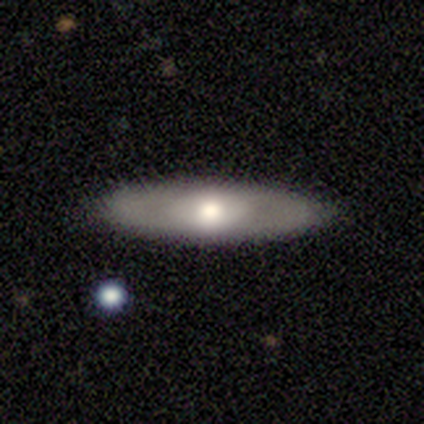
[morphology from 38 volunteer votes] A smooth galaxy with no disk features (50%) that is cigar-shaped (63%). Merging: none (83%).